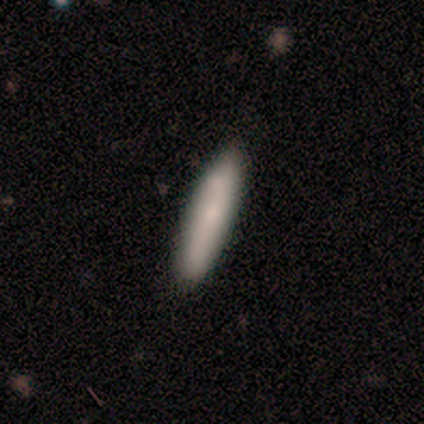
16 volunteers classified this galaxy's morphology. smooth-or-featured: smooth: 88% | featured or disk: 6% | star or artifact: 6%
  how-rounded: cigar-shaped: 71% | in between: 29% | round: 0%
  merging: none: 87% | minor disturbance: 7% | merger: 7% | major disturbance: 0%